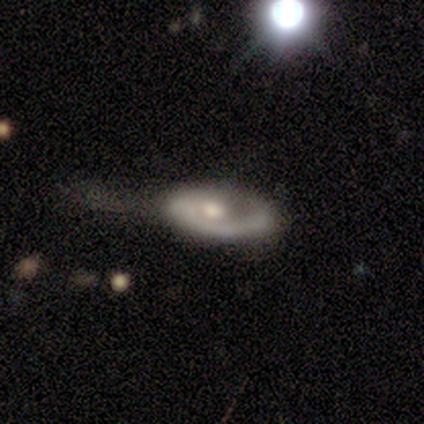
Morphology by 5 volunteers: Volunteers were most divided on "smooth or featured" (2-way tie): smooth: 40%, featured or disk: 40%, star or artifact: 20%; "merging" (2-way tie): minor disturbance: 50%, major disturbance: 50%, none: 0%, merger: 0%. More confident: how rounded — in between (100%).